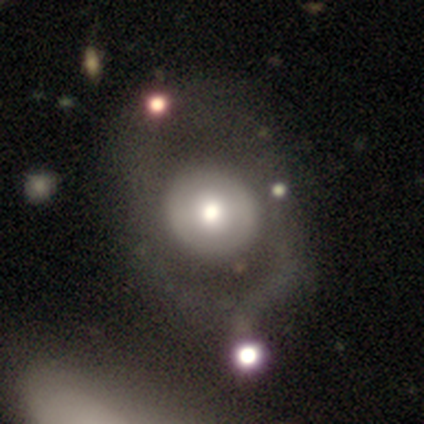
Volunteers were most divided on "smooth or featured": featured or disk: 61%, smooth: 32%, star or artifact: 7%. More confident: edge-on disk — no (100%); spiral arms — no (68%); bar — no (68%); bulge size — moderate (56%); merging — none (55%).